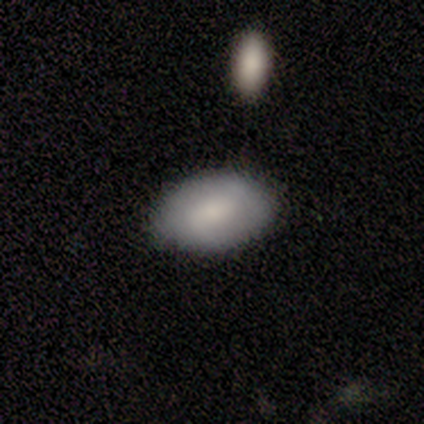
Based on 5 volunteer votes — Morphology: type=smooth (60%); roundness=in between (100%); merging=none (100%).